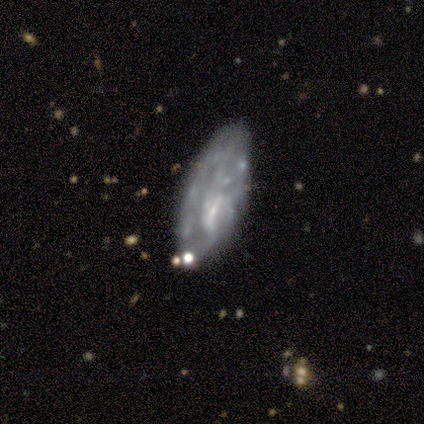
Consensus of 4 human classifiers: Volunteers were most divided on "bar" (2-way tie): weak: 50%, no: 50%, strong: 0%. More confident: smooth or featured — featured or disk (100%); edge-on disk — no (100%); spiral arms — no (75%); merging — none (75%); bulge size — small (50%).